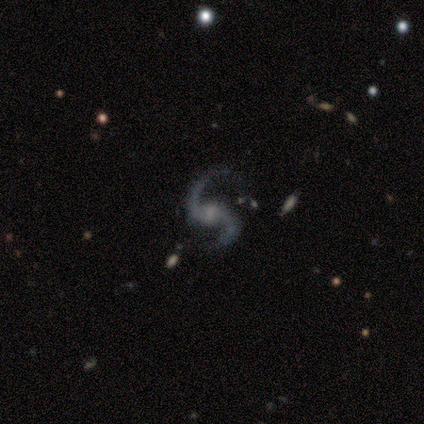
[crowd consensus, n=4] Morphology: type=featured or disk (75%); edge-on=no (100%); bar=no (100%); spiral arms=yes (100%); winding=loose (67%); arm count=2 (100%); bulge=small (67%); merging=none (75%).